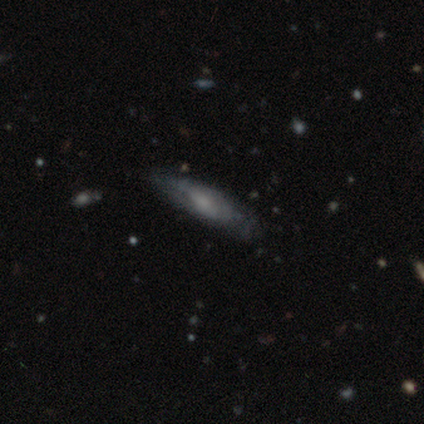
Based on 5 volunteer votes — Volunteers were most divided on "edge-on disk" (2-way tie): yes: 50%, no: 50%; "edge-on bulge" (2-way tie): boxy: 50%, none: 50%, rounded: 0%. More confident: smooth or featured — featured or disk (80%); merging — minor disturbance (60%).